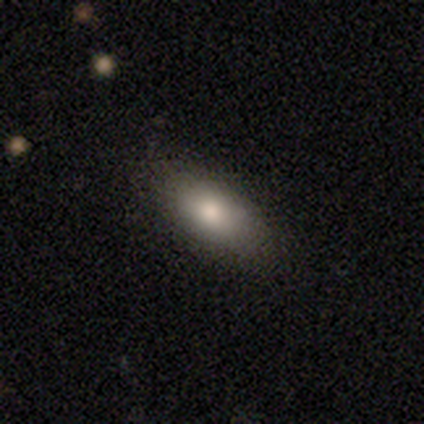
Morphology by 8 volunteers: Smooth or featured? 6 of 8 (75%) said smooth. How rounded? 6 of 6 (100%) said in between. Merging? 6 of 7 (86%) said none.